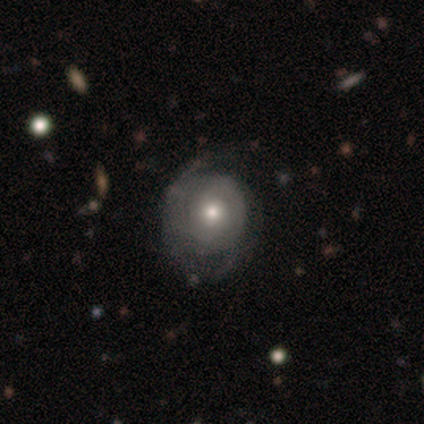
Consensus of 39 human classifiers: smooth_or_featured: featured or disk (p=0.51) [alt: smooth p=0.36]
disk_edge_on: no (p=0.95) [alt: yes p=0.05]
bar: no (p=0.84) [alt: weak p=0.11]
has_spiral_arms: yes (p=0.58) [alt: no p=0.42]
spiral_winding: tight (p=0.64) [alt: medium p=0.27]
spiral_arm_count: 2 (p=0.64) [alt: can't tell p=0.27]
bulge_size: moderate (p=0.63) [alt: small p=0.26]
merging: none (p=0.50) [alt: minor disturbance p=0.26]